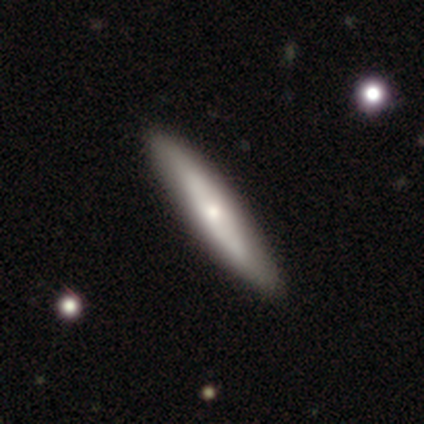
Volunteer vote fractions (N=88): A smooth galaxy with no disk features (53%) that is cigar-shaped (81%). Merging: none (85%).